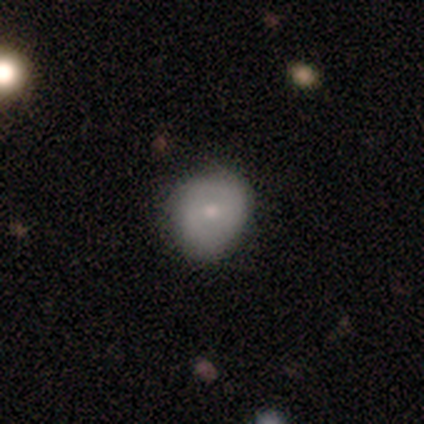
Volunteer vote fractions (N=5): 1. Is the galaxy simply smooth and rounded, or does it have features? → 80% smooth, 20% featured or disk, 0% star or artifact.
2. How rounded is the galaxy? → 50% round (tied), 50% in between (tied), 0% cigar-shaped.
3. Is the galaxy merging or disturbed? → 100% none, 0% minor disturbance, 0% major disturbance, 0% merger.